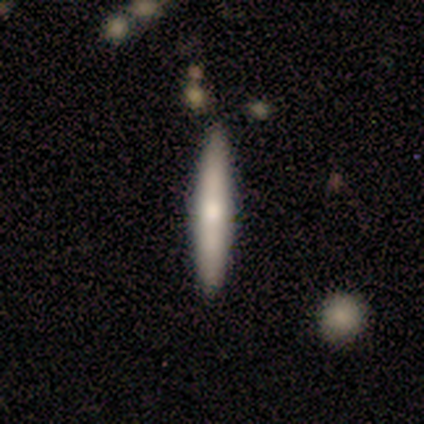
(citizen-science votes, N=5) A smooth galaxy with no disk features (60%) that is cigar-shaped (67%). Merging: none (60%).